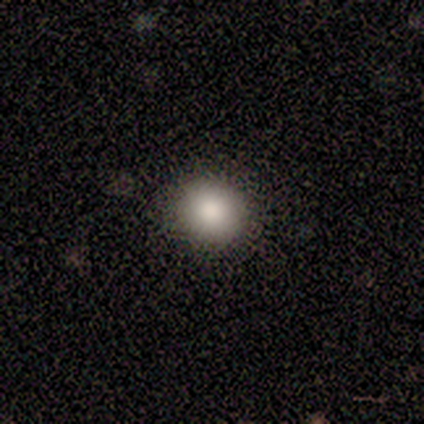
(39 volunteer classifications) Morphology: type=smooth (82%); roundness=round (75%); merging=none (86%).